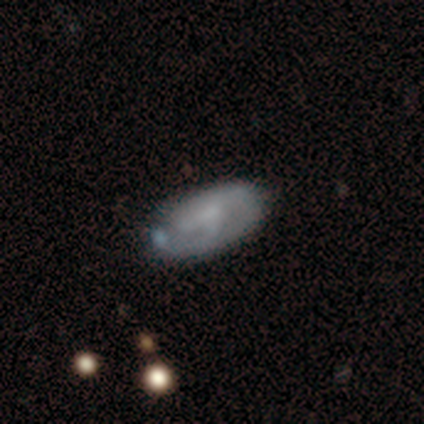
smooth-or-featured: smooth: 75% | featured or disk: 25% | star or artifact: 0%
  how-rounded: in between: 100% | round: 0% | cigar-shaped: 0%
  merging: none: 75% | minor disturbance: 25% | major disturbance: 0% | merger: 0%